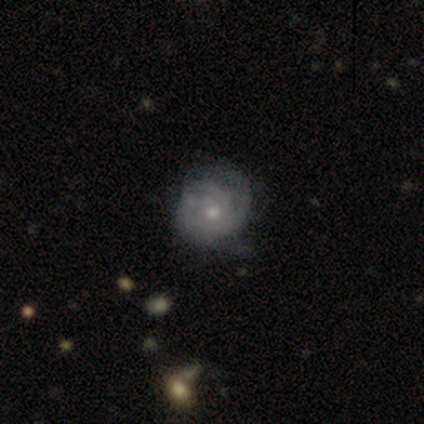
Volunteers were most divided on "bulge size": small: 53%, moderate: 41%, large: 3%, none: 3%, dominant: 0%. More confident: edge-on disk — no (97%); spiral arms — yes (88%); bar — no (81%); smooth or featured — featured or disk (80%); spiral arm count — can't tell (71%); merging — none (66%); spiral winding — tight (61%).